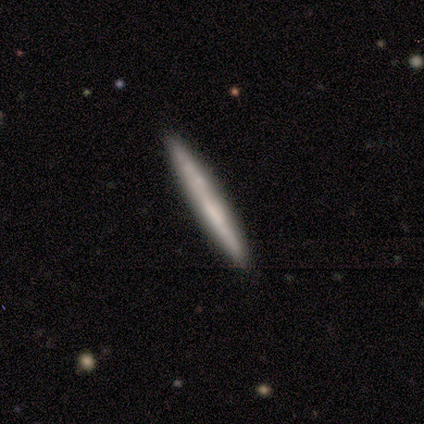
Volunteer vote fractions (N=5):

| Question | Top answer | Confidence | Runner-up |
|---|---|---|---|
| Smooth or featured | smooth | 60% | featured or disk (40%) |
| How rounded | cigar-shaped | 100% | — |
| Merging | none | 100% | — |